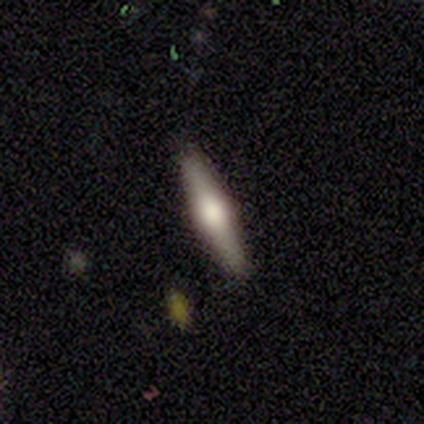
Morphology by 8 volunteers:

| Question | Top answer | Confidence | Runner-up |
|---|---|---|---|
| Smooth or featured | featured or disk | 75% | smooth (25%) |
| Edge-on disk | yes | 100% | — |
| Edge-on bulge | rounded | 83% | boxy (17%) |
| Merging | none | 100% | — |